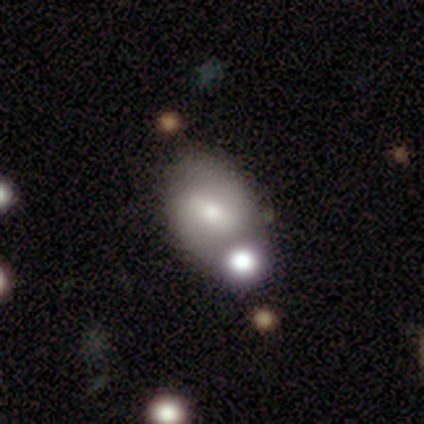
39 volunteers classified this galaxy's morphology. Smooth or featured? 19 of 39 (49%) said featured or disk. Edge-on disk? 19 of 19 (100%) said no. Bar? 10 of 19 (53%) said weak. Spiral arms? 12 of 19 (63%) said yes. Spiral winding? 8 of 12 (67%) said medium. Spiral arm count? 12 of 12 (100%) said 2. Bulge size? 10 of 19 (53%) said moderate. Merging? 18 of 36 (50%) said none.